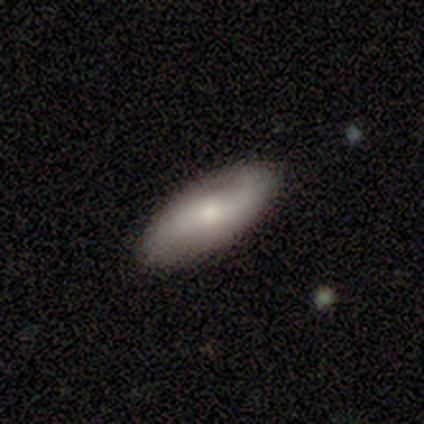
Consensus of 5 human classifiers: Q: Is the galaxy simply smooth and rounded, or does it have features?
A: smooth — 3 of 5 (60%).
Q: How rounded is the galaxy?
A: in between — 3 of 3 (100%).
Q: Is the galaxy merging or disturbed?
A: none — 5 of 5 (100%).